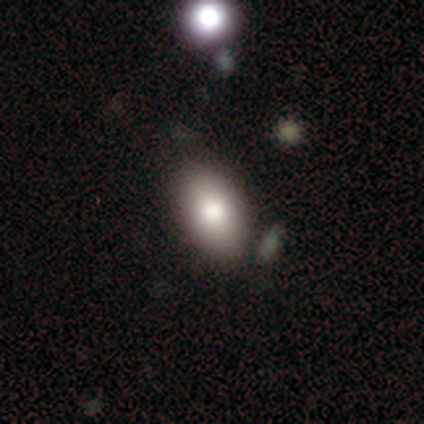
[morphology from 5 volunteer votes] Smooth or featured? 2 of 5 (40%, tied with featured or disk) said smooth. How rounded? 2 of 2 (100%) said in between. Merging? 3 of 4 (75%) said none.